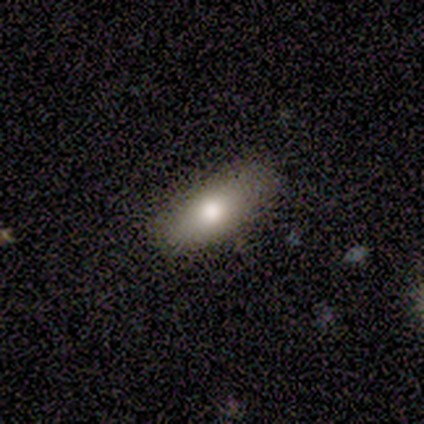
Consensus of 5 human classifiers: A smooth galaxy with no disk features (80%) that is in between round and cigar-shaped (50%, tied with cigar-shaped). Merging: none (80%).